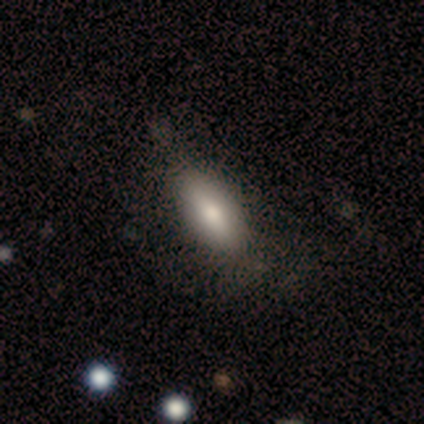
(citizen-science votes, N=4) Volunteers were most divided on "merging": none: 75%, minor disturbance: 25%, major disturbance: 0%, merger: 0%. More confident: smooth or featured — smooth (100%); how rounded — in between (100%).